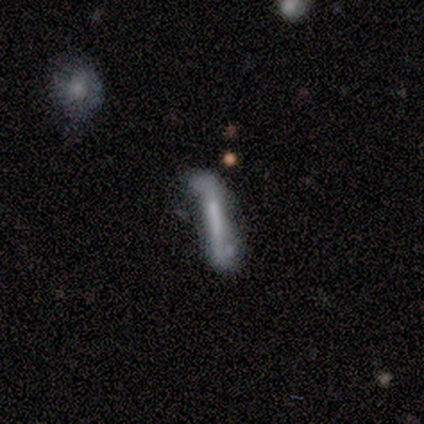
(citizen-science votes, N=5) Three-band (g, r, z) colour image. It shows a featured or disk galaxy (60%) viewed edge-on (67%) with a boxy central bulge (50%, tied with none). Merging: none (40%, tied with minor disturbance).